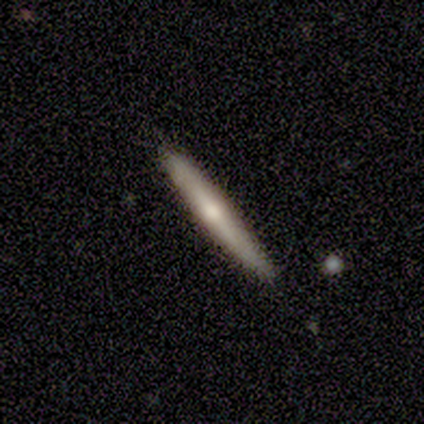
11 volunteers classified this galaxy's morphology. Smooth or featured: smooth — 55% (featured or disk — 45%)
How rounded: cigar-shaped — 83% (in between — 17%)
Merging: none — 82% (minor disturbance — 18%)